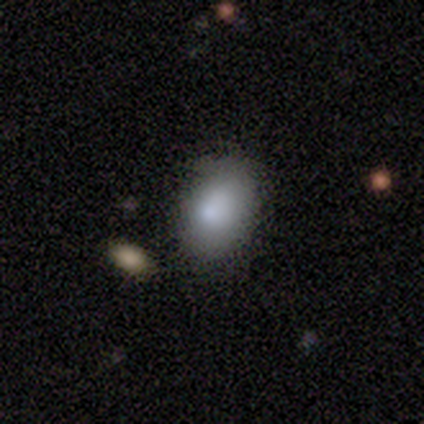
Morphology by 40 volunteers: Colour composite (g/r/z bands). It shows a smooth galaxy with no disk features (85%) that is in between round and cigar-shaped (88%). Merging: none (68%).